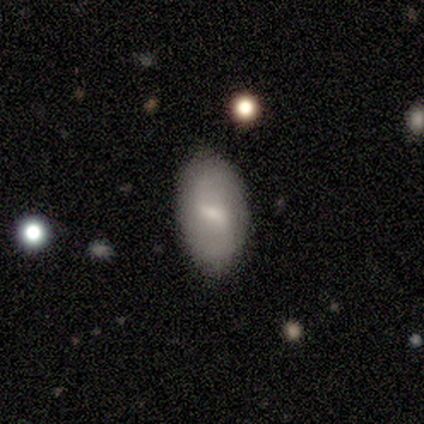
Smooth or featured? 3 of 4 (75%) said smooth. How rounded? 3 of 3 (100%) said in between. Merging? 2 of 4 (50%) said none.